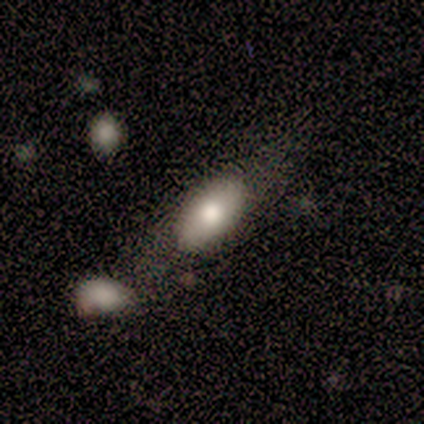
Overall: smooth (60%; featured or disk 20%). How rounded: in between (100%). Merging: minor disturbance (50%; none 25%).